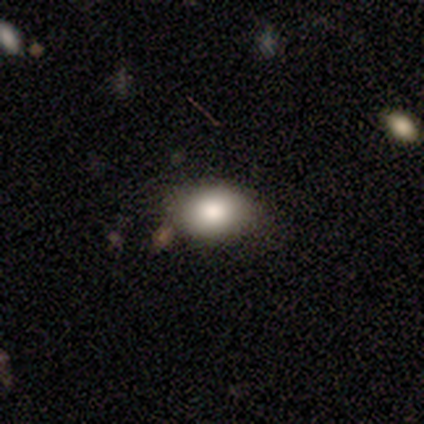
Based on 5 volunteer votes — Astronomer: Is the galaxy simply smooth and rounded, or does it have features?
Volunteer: smooth — 100%.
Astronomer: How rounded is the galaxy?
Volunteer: in between — 100%.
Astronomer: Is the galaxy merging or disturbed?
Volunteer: none — 80%.